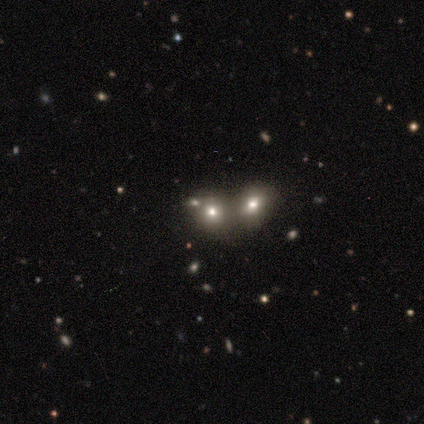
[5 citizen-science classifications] Smooth or featured: smooth — 100%
How rounded: round — 80% (in between — 20%)
Merging: none — 60% (merger — 40%)